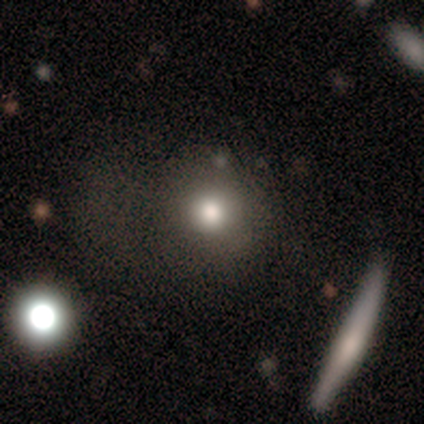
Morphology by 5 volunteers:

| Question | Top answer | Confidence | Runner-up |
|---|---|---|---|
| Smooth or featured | star or artifact | 60% | featured or disk (40%) |